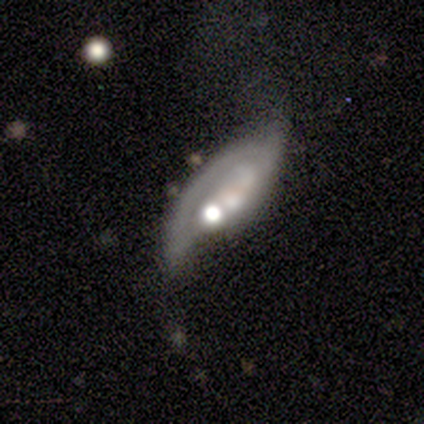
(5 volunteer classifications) Smooth or featured: featured or disk — 60% (smooth — 40%)
Edge-on disk: no — 100%
Bar: no — 100%
Spiral arms: no — 67% (yes — 33%)
Bulge size: moderate — 67% (large — 33%)
Merging: major disturbance — 60% (minor disturbance — 40%)